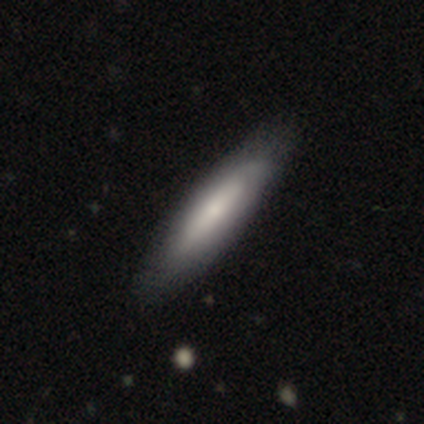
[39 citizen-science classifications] Smooth or featured?
  - smooth: 67% *
  - featured or disk: 31%
  - star or artifact: 3%
How rounded?
  - cigar-shaped: 77% *
  - in between: 23%
  - round: 0%
Merging?
  - none: 61% *
  - minor disturbance: 8%
  - major disturbance: 3%
  - merger: 0%